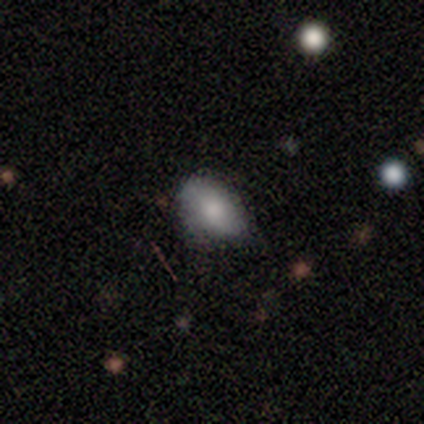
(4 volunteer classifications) Smooth or featured: smooth — 75% (featured or disk — 25%)
How rounded: in between — 100%
Merging: none — 75% (minor disturbance — 25%)